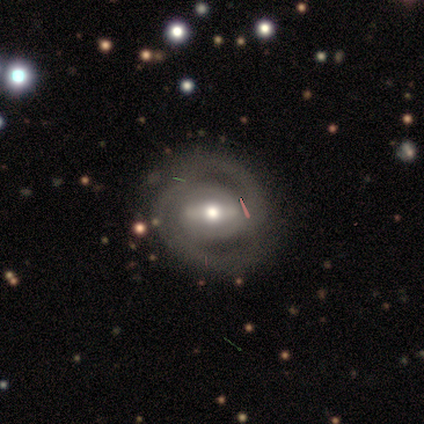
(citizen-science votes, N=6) Volunteers were most divided on "bar" (2-way tie): strong: 50%, weak: 50%, no: 0%. More confident: edge-on disk — no (100%); spiral arms — yes (100%); merging — none (83%); spiral winding — medium (75%); spiral arm count — 2 (75%); smooth or featured — featured or disk (67%); bulge size — moderate (50%).